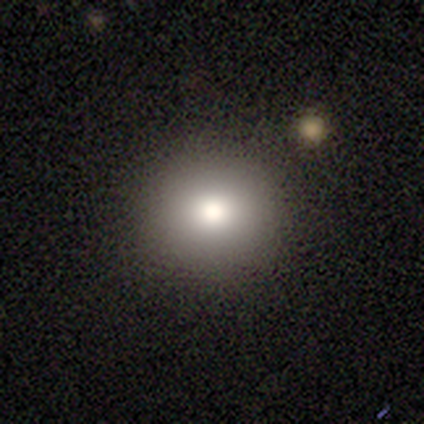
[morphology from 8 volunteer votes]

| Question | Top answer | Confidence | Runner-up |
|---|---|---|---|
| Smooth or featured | smooth | 75% | featured or disk (12%) |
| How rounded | round | 100% | — |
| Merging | none | 100% | — |